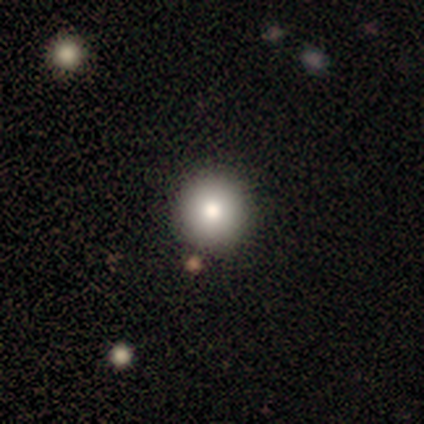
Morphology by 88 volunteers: type=smooth (78%); roundness=round (91%); merging=none (92%).